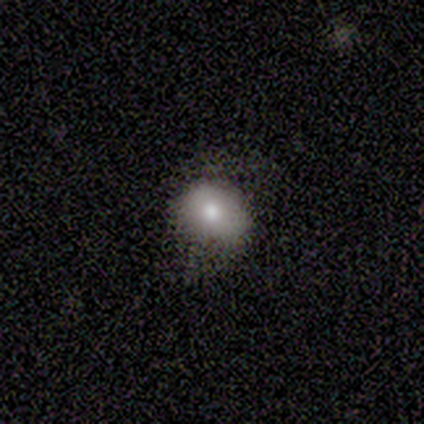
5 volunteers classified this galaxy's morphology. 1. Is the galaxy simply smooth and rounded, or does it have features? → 60% smooth, 40% star or artifact, 0% featured or disk.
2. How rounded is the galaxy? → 67% in between, 33% round, 0% cigar-shaped.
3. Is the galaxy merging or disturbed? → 67% none, 33% minor disturbance, 0% major disturbance, 0% merger.